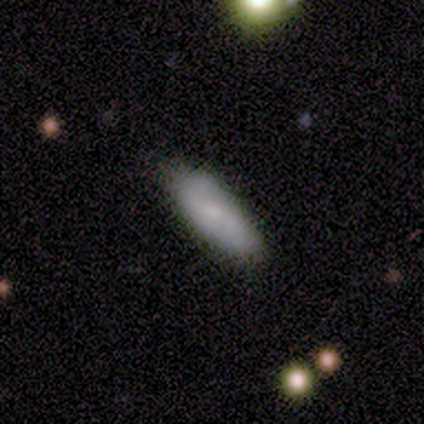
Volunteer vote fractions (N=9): Volunteers were most divided on "how rounded" (2-way tie): in between: 50%, cigar-shaped: 50%, round: 0%. More confident: smooth or featured — smooth (89%); merging — none (89%).